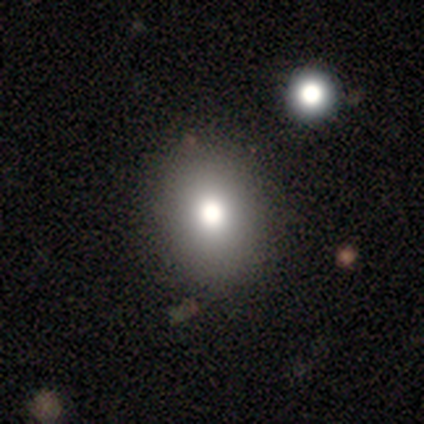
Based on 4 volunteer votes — smooth-or-featured: smooth: 75% | featured or disk: 25% | star or artifact: 0%
  how-rounded: in between: 67% | round: 33% | cigar-shaped: 0%
  merging: none: 75% | minor disturbance: 25% | major disturbance: 0% | merger: 0%